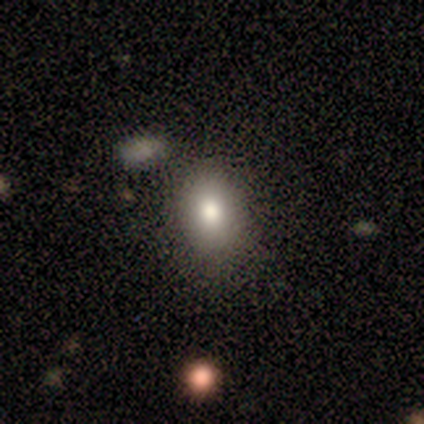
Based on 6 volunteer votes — Overall: smooth (100%). How rounded: in between (67%; round 33%). Merging: none (83%).